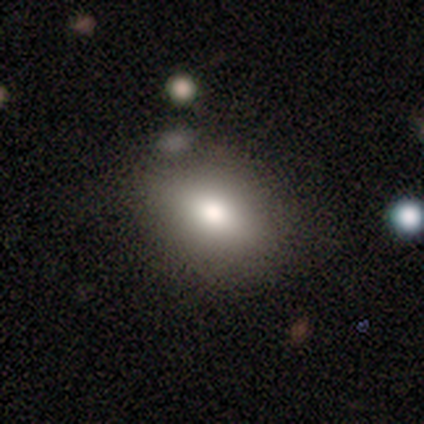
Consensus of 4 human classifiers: smooth 75%, star or artifact 25%, featured or disk 0%. Down the decision tree: how rounded — in between (100%); merging — none (67%).